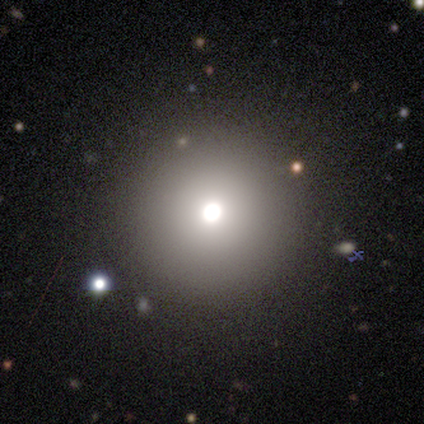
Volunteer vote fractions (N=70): A smooth galaxy with no disk features (79%) that is round (100%). Merging: none (43%).